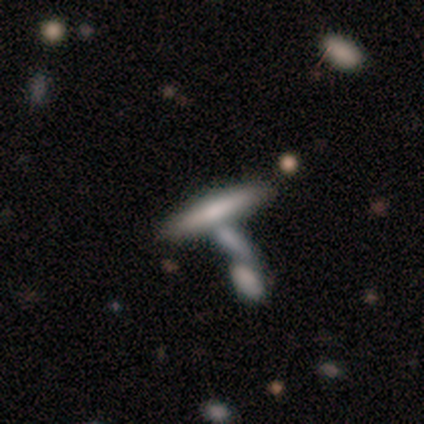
Overall: featured or disk (50%; star or artifact 33%). Edge-on disk: yes (100%). Edge-on bulge: boxy (33%, tied with none and rounded). Merging: none (75%).